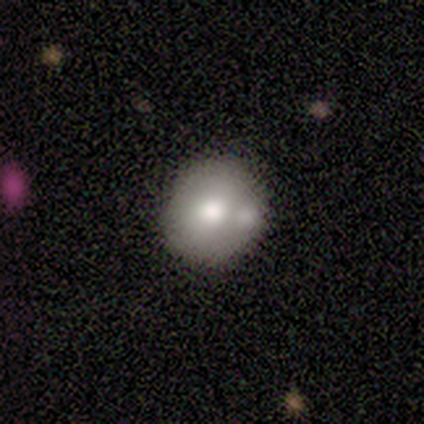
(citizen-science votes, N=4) Smooth or featured? 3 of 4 (75%) said smooth. How rounded? 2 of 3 (67%) said in between. Merging? 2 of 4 (50%) said none.